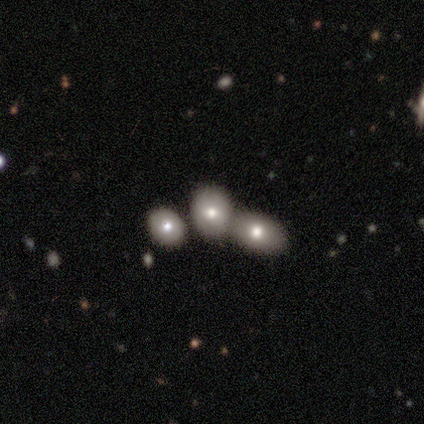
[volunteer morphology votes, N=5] type=star or artifact (60%).